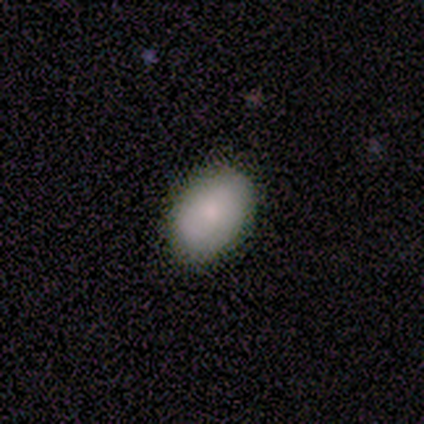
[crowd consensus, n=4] This is clearly a smooth galaxy (100%). How rounded: likely in between (75%). Merging: likely none (75%).